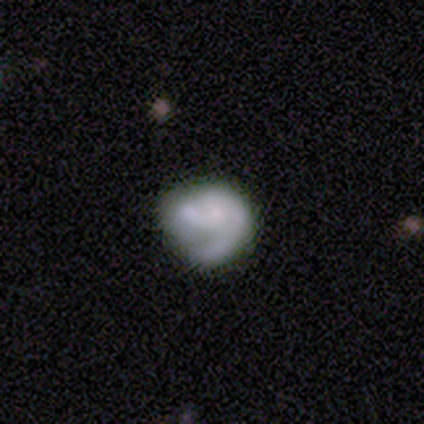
Smooth or featured: featured or disk — 57% (smooth — 31%)
Edge-on disk: no — 100%
Bar: no — 88% (weak — 10%)
Spiral arms: yes — 78% (no — 22%)
Spiral winding: tight — 44% (tied with medium — 44%)
Spiral arm count: 2 — 69% (1 — 23%)
Bulge size: small — 38% (none — 34%)
Merging: none — 39% (minor disturbance — 34%)